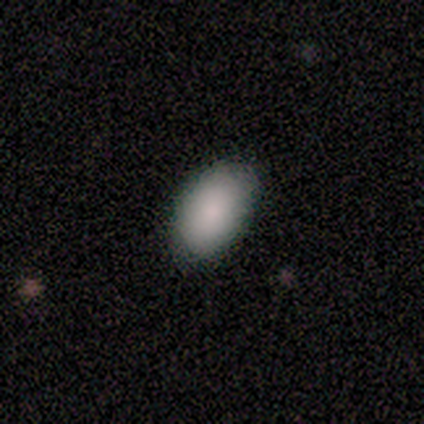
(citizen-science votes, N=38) Smooth or featured? 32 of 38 (84%) said smooth. How rounded? 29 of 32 (91%) said in between. Merging? 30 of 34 (88%) said none.